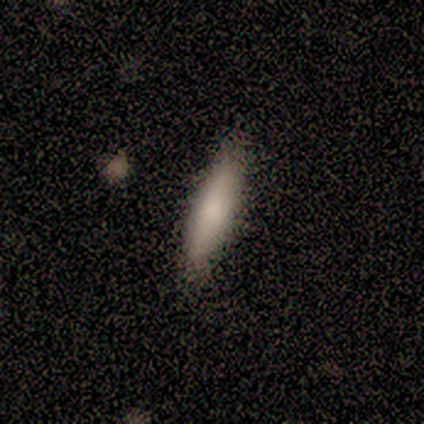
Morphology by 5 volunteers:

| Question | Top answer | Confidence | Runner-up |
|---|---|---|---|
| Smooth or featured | smooth | 80% | featured or disk (20%) |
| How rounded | in between | 50% | tied: cigar-shaped (50%) |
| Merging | none | 100% | — |